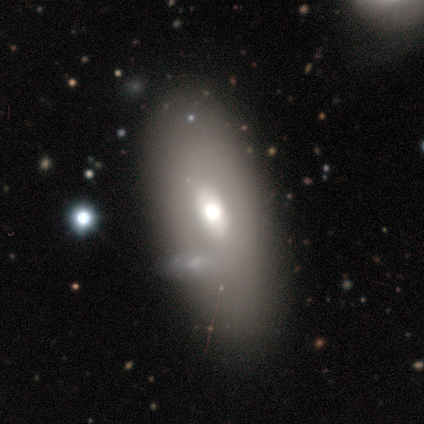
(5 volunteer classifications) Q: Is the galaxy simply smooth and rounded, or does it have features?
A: smooth — 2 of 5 (40%, tied with featured or disk).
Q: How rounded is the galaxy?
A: in between — 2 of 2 (100%).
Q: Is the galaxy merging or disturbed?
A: minor disturbance — 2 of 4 (50%).